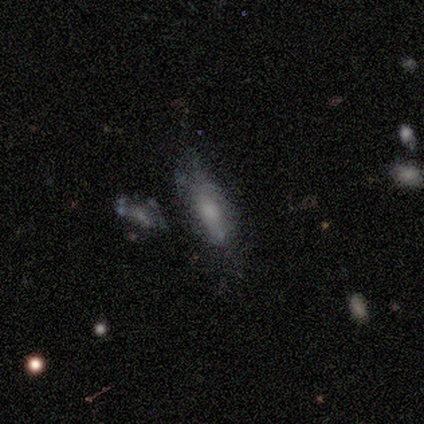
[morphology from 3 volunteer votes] Volunteers were most divided on "how rounded" (2-way tie): in between: 50%, cigar-shaped: 50%, round: 0%. More confident: smooth or featured — smooth (67%); merging — none (67%).